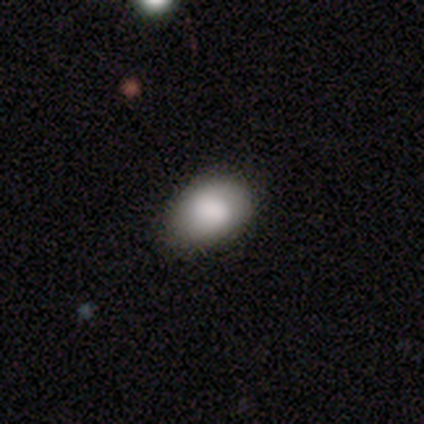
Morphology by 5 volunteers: smooth_or_featured: smooth (p=0.80) [alt: featured or disk p=0.20]
how_rounded: in between (p=1.00)
merging: none (p=1.00)